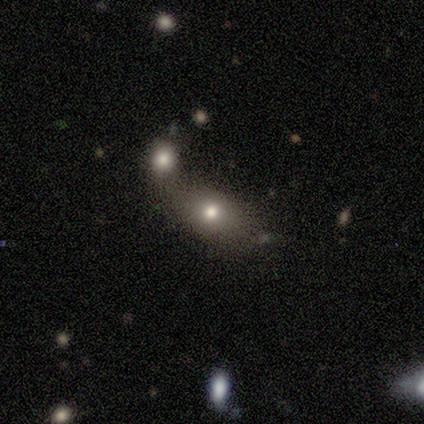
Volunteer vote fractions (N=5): Smooth or featured? 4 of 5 (80%) said smooth. How rounded? 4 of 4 (100%) said in between. Merging? 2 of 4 (50%, tied with merger) said none.